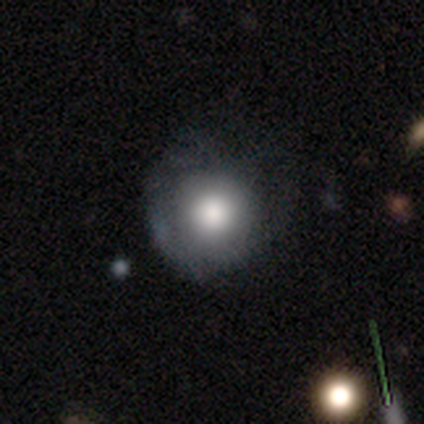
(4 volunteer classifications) Morphology: type=smooth (75%); roundness=round (100%); merging=major disturbance (50%).